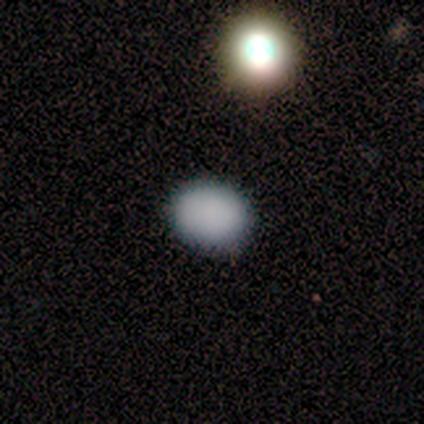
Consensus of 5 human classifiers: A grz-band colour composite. It shows a smooth galaxy with no disk features (80%) that is round (75%). Merging: none (100%).